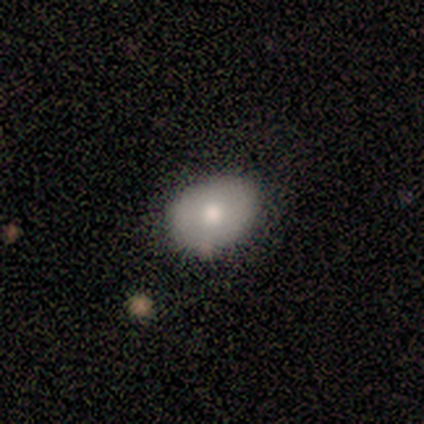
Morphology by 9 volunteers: smooth_or_featured: smooth (p=0.56) [alt: featured or disk p=0.44]
how_rounded: round (p=0.60) [alt: in between p=0.40]
merging: none (p=1.00)